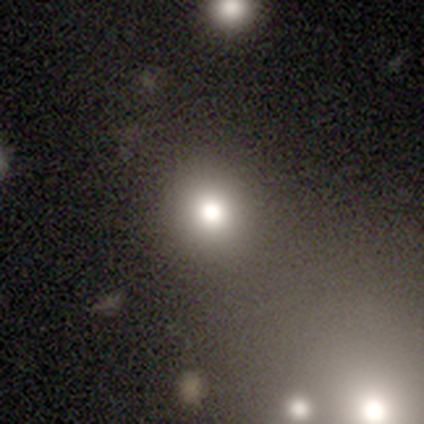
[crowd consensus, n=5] smooth-or-featured: smooth: 100% | featured or disk: 0% | star or artifact: 0%
  how-rounded: round: 80% | in between: 20% | cigar-shaped: 0%
  merging: none: 100% | minor disturbance: 0% | major disturbance: 0% | merger: 0%